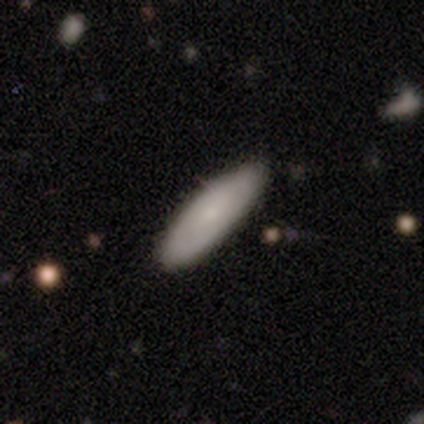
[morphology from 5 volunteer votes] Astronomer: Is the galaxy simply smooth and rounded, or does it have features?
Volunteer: smooth — 80%.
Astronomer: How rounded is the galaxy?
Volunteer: in between — 75%.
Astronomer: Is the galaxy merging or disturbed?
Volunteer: none — 80%.